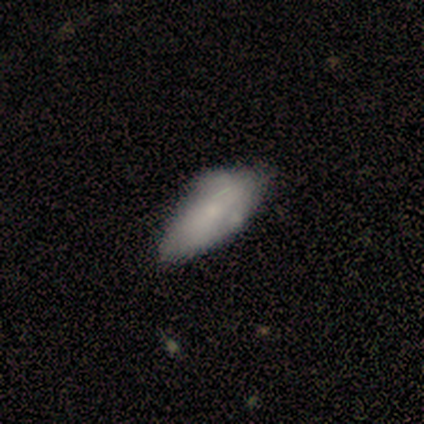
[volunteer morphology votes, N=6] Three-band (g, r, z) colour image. It shows a smooth galaxy with no disk features (67%) that is in between round and cigar-shaped (75%). Merging: minor disturbance (60%).